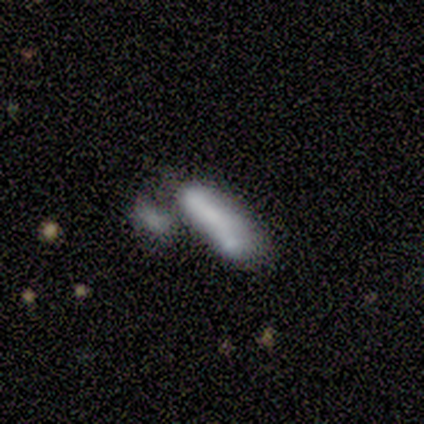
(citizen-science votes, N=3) Overall: smooth (100%). How rounded: cigar-shaped (67%; in between 33%). Merging: merger (67%; none 33%).